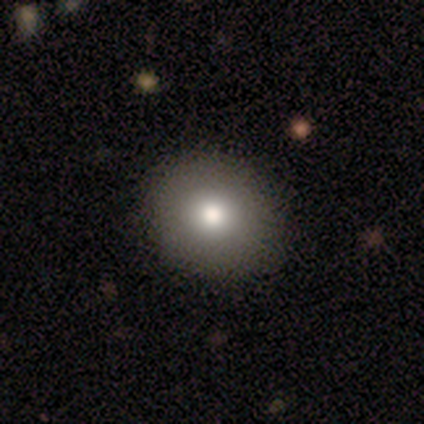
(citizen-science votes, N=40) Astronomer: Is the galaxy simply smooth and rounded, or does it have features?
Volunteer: smooth — 82%.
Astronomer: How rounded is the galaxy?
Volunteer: round — 73%.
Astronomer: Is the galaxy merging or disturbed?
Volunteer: none — 75%.